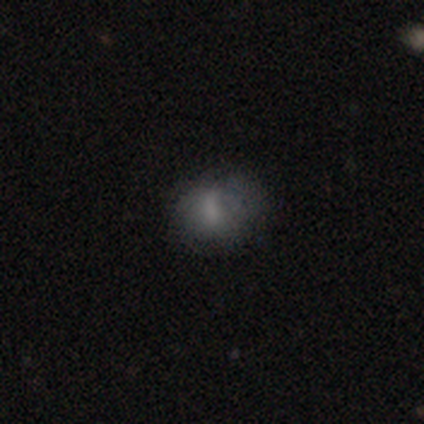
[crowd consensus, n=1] Morphology: type=smooth (100%); roundness=in between (100%); merging=none (100%).